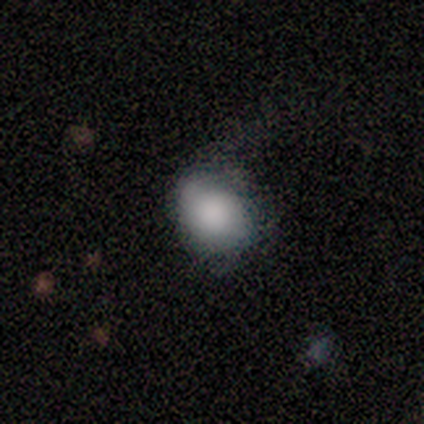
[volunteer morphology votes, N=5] smooth 60%, featured or disk 40%, star or artifact 0%. Down the decision tree: how rounded — in between (67%); merging — minor disturbance (60%).